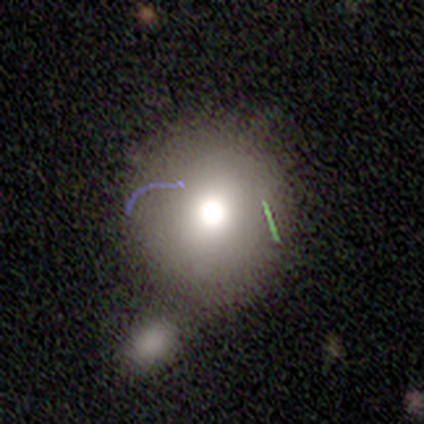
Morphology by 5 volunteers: A smooth galaxy with no disk features (60%) that is round (67%). Merging: none (40%, tied with minor disturbance).